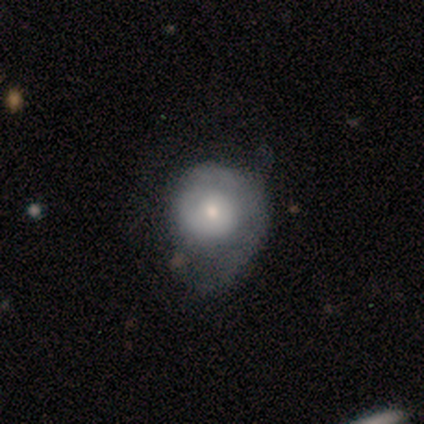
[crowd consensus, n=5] Q: Smooth or featured?
A: featured or disk (100%)
Q: Edge-on disk?
A: no (100%)
Q: Bar?
A: no (80%); runner-up: weak (20%)
Q: Spiral arms?
A: yes (100%)
Q: Spiral winding?
A: tight (60%); runner-up: medium (20%)
Q: Spiral arm count?
A: 1 (40%); tied with: 2 (40%)
Q: Bulge size?
A: small (60%); runner-up: dominant (20%)
Q: Merging?
A: none (60%); runner-up: minor disturbance (20%)